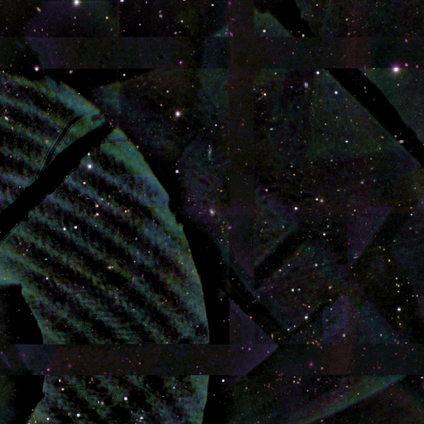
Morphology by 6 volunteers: smooth-or-featured: star or artifact: 100% | smooth: 0% | featured or disk: 0%